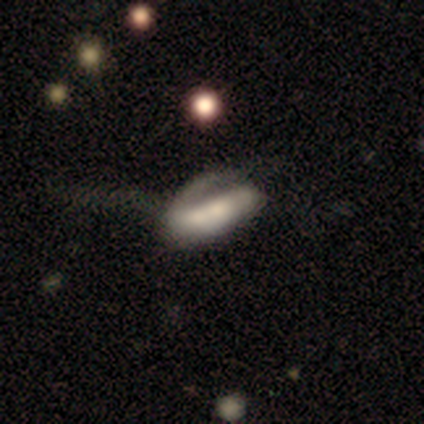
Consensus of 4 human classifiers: Smooth or featured: star or artifact — 50% (smooth — 25%)